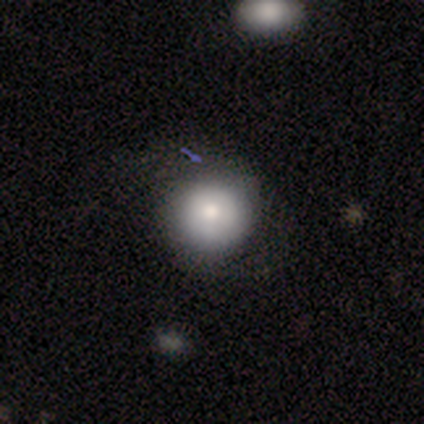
Overall: smooth (66%). How rounded: round (92%). Merging: none (82%).